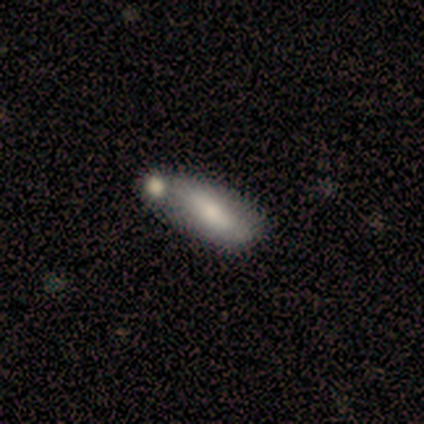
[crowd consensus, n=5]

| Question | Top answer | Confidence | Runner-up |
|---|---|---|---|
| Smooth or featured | featured or disk | 60% | smooth (40%) |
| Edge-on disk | yes | 100% | — |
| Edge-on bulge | boxy | 33% | tied: none (33%), rounded (33%) |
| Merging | minor disturbance | 40% | tied: merger (40%) |